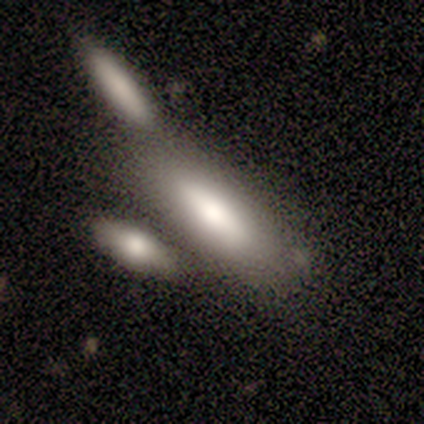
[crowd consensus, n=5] Smooth or featured: smooth — 40% (tied with featured or disk — 40%)
How rounded: cigar-shaped — 100%
Merging: none — 50% (minor disturbance — 25%)